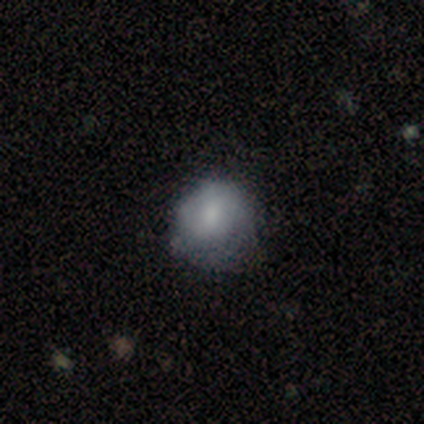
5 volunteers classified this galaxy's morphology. This appears to be a smooth galaxy with no disk features (80%) that is round (100%). Merging: minor disturbance (75%).